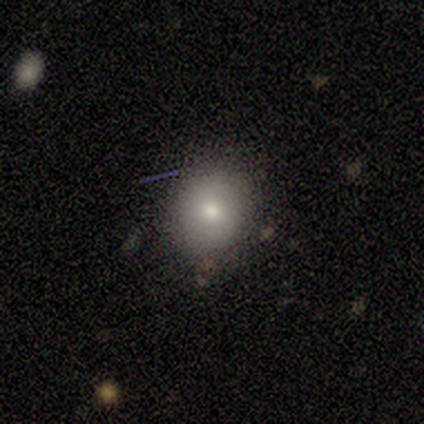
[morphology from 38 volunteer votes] Smooth or featured? smooth (92%)
How rounded? round (89%)
Merging? none (79%)